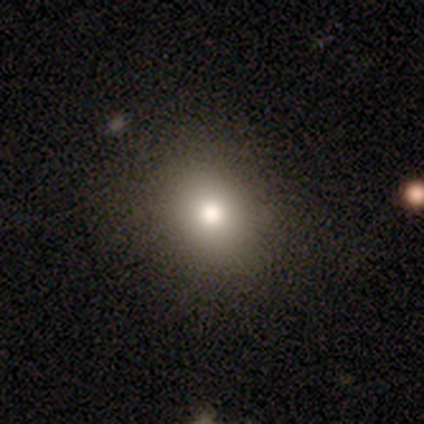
smooth 100%, featured or disk 0%, star or artifact 0%. Down the decision tree: how rounded — round (80%); merging — none (80%).